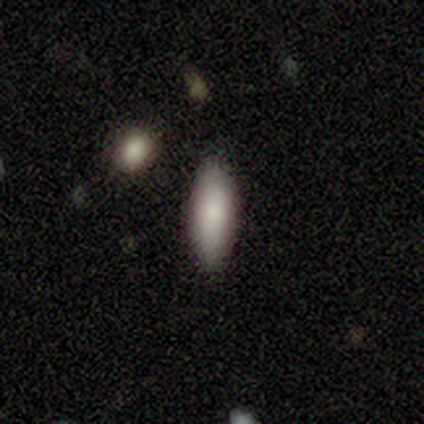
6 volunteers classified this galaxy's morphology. A smooth galaxy with no disk features (83%) that is in between round and cigar-shaped (60%).

Vote fractions:
- Smooth or featured? smooth: 83% / featured or disk: 17% / star or artifact: 0%
- How rounded? in between: 60% / cigar-shaped: 40% / round: 0%
- Merging? none: 100% / minor disturbance: 0% / major disturbance: 0% / merger: 0%